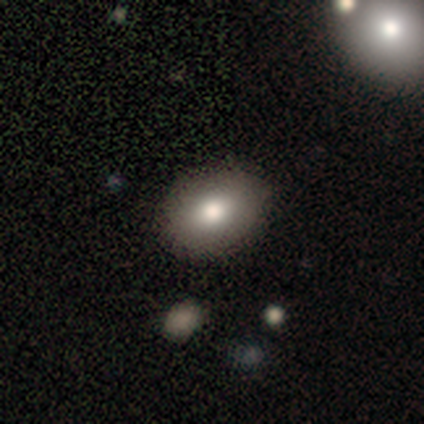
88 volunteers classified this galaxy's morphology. Q: Smooth or featured?
A: smooth (77%); runner-up: featured or disk (12%)
Q: How rounded?
A: in between (63%); runner-up: round (37%)
Q: Merging?
A: none (84%); runner-up: minor disturbance (14%)